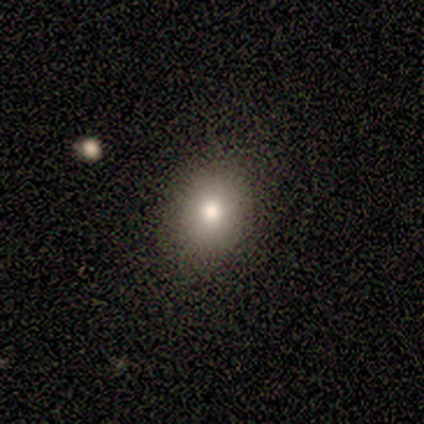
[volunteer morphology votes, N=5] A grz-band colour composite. It shows a smooth galaxy with no disk features (80%) that is round (75%). Merging: none (100%).